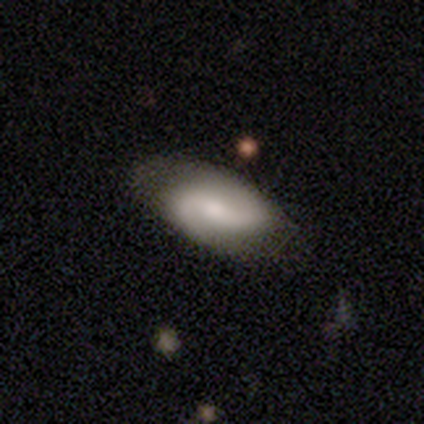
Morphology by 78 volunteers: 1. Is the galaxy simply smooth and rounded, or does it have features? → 74% featured or disk, 21% smooth, 5% star or artifact.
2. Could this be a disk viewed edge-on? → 95% no, 5% yes.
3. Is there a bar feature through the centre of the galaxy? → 53% weak, 31% no, 16% strong.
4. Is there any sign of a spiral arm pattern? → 89% yes, 11% no.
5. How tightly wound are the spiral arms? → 51% loose, 29% medium, 20% tight.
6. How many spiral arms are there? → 98% 2, 2% 1, 0% 3, 0% 4, 0% more than 4, 0% can't tell.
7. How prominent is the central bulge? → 45% moderate, 38% small, 7% large, 7% none, 2% dominant.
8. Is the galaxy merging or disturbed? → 36% none, 12% minor disturbance, 4% merger, 1% major disturbance.